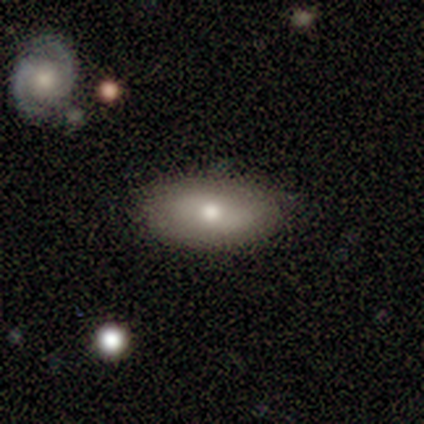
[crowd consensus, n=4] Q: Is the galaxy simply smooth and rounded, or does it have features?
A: smooth — 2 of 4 (50%, tied with featured or disk).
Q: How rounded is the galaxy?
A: in between — 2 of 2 (100%).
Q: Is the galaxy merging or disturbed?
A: none — 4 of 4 (100%).